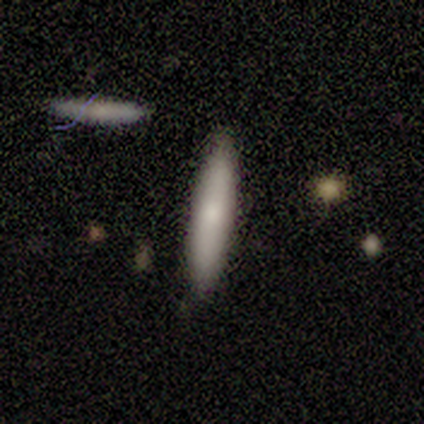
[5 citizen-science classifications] smooth 80%, featured or disk 20%, star or artifact 0%. Down the decision tree: how rounded — cigar-shaped (100%); merging — none (40%, tied with merger).